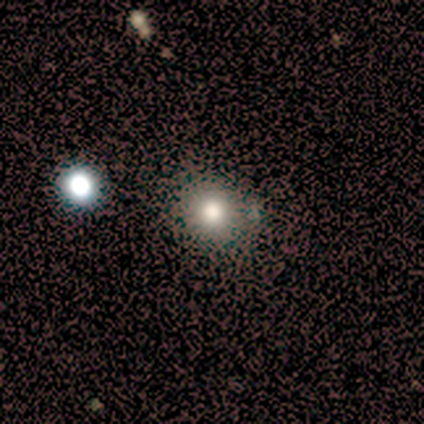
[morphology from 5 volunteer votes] Smooth or featured? 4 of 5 (80%) said smooth. How rounded? 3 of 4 (75%) said round. Merging? 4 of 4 (100%) said none.